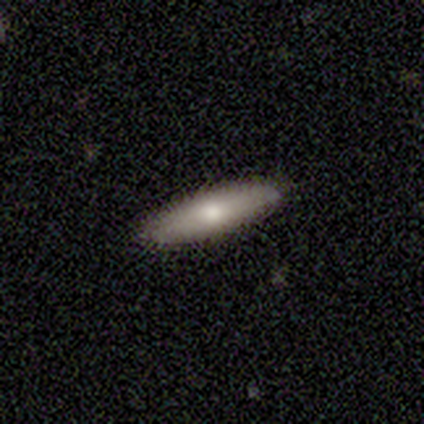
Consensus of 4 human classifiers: smooth 50% (tied), featured or disk 50% (tied), star or artifact 0%. Down the decision tree: how rounded — cigar-shaped (100%); merging — none (100%).